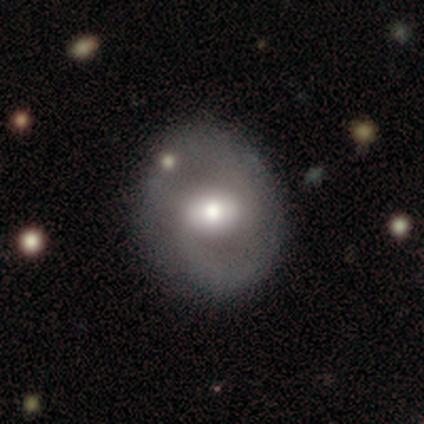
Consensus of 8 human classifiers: featured or disk 75%, smooth 25%, star or artifact 0%. Down the decision tree: edge-on disk — no (100%); bar — weak (67%); spiral arms — yes (100%); spiral arm count — 2 (100%); spiral winding — loose (50%); bulge size — moderate (50%); merging — none (88%).